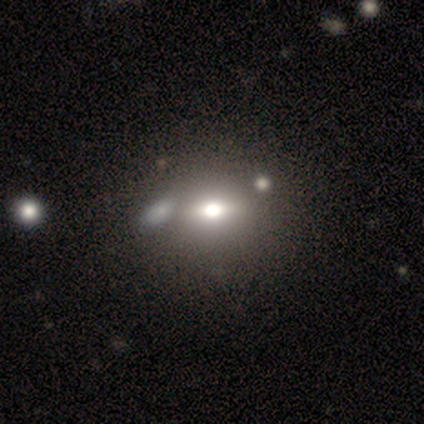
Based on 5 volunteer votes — Overall: smooth (60%; featured or disk 40%). How rounded: in between (100%). Merging: none (60%; major disturbance 20%).